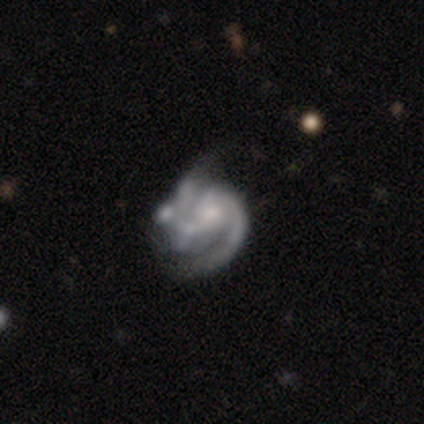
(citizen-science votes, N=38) Smooth or featured: featured or disk — 95% (smooth — 5%)
Edge-on disk: no — 100%
Bar: no — 69% (weak — 25%)
Spiral arms: yes — 86% (no — 14%)
Spiral winding: medium — 48% (tight — 35%)
Spiral arm count: 2 — 52% (can't tell — 26%)
Bulge size: moderate — 42% (none — 31%)
Merging: major disturbance — 32% (tied with merger — 32%)